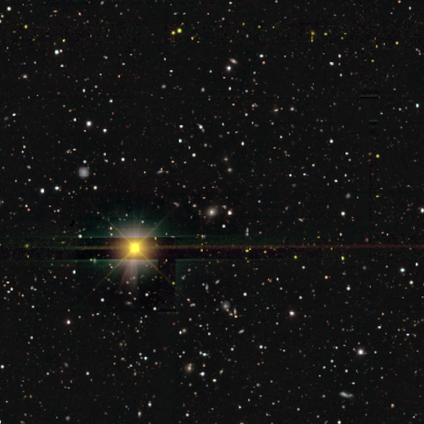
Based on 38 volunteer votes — Smooth or featured?
  - star or artifact: 87% *
  - featured or disk: 8%
  - smooth: 5%